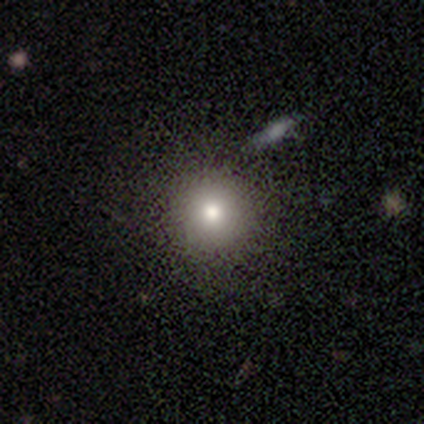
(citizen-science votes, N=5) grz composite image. It shows a smooth galaxy with no disk features (80%) that is round (100%). Merging: none (75%).